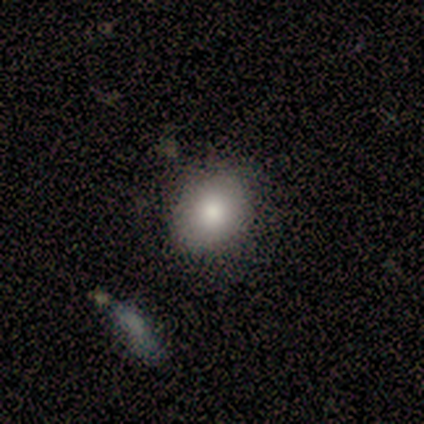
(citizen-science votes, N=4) Smooth or featured? smooth (75%)
How rounded? round (100%)
Merging? none (100%)